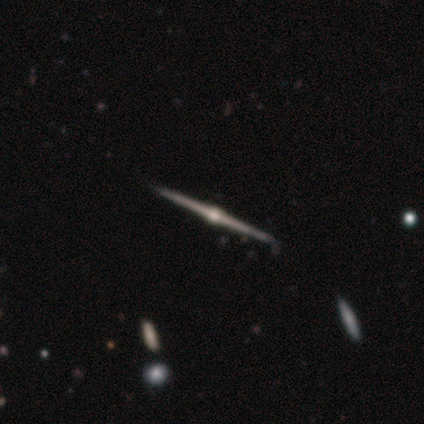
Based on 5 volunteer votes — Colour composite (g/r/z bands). It shows a featured or disk galaxy (100%) viewed edge-on (100%) with a rounded central bulge (100%). Merging: none (100%).